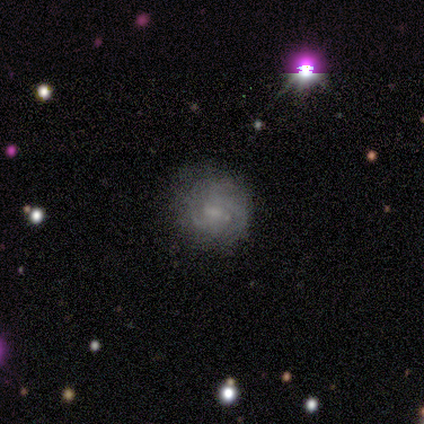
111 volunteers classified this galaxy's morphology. Smooth or featured? 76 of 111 (68%) said featured or disk. Edge-on disk? 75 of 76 (99%) said no. Bar? 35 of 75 (47%, tied with no) said weak. Spiral arms? 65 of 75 (87%) said yes. Spiral winding? 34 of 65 (52%) said tight. Spiral arm count? 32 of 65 (49%) said can't tell. Bulge size? 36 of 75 (48%) said small. Merging? 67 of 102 (66%) said none.